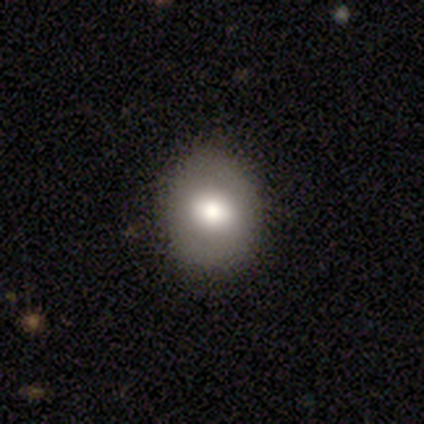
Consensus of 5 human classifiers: Overall: smooth (60%; featured or disk 40%). How rounded: round (67%; in between 33%). Merging: none (100%).